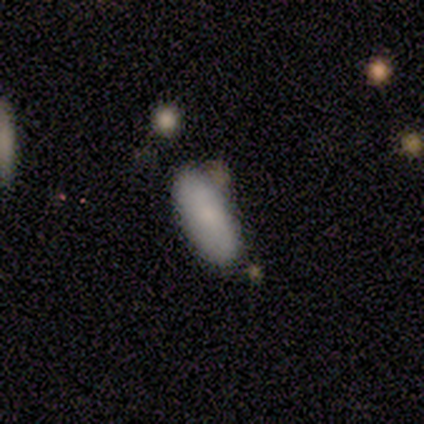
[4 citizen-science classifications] This is possibly a smooth galaxy (50%). How rounded: clearly in between (100%). Merging: likely none (67%).